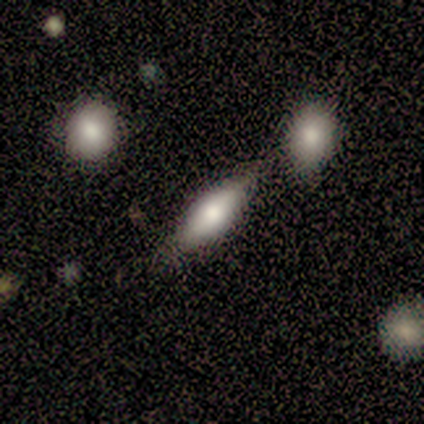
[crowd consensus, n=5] Smooth or featured? 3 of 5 (60%) said smooth. How rounded? 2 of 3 (67%) said cigar-shaped. Merging? 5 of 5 (100%) said none.